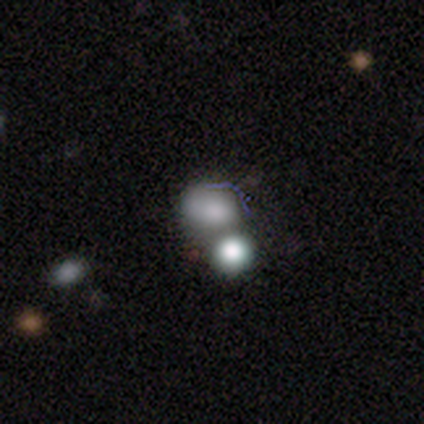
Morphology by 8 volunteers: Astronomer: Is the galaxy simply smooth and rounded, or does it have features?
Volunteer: smooth — 75%.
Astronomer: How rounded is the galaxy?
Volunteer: round — 67%.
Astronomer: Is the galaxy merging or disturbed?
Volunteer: merger — 43% (runner-up: none, 29%).